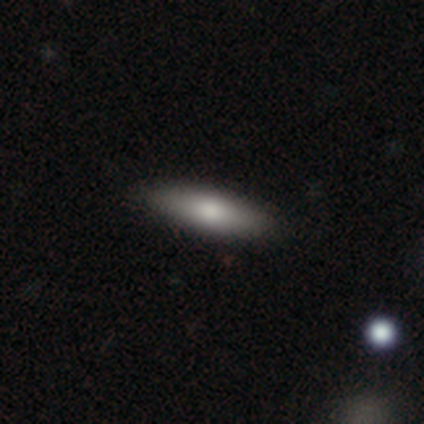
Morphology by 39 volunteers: Smooth or featured? smooth (69%)
How rounded? cigar-shaped (56%)
Merging? none (80%)